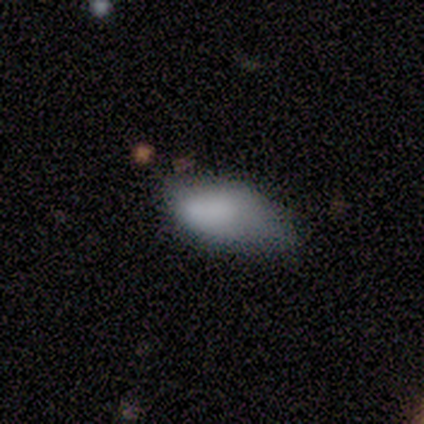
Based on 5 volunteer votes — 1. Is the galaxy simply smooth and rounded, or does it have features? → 100% smooth, 0% featured or disk, 0% star or artifact.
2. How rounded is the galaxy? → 80% in between, 20% round, 0% cigar-shaped.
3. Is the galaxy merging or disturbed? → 40% minor disturbance, 20% none, 20% major disturbance, 20% merger.